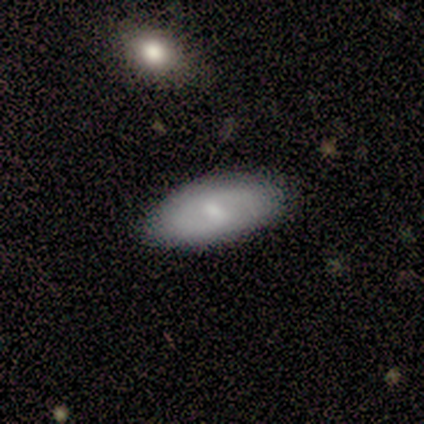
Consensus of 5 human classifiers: featured or disk 60%, smooth 40%, star or artifact 0%. Down the decision tree: edge-on disk — no (100%); bar — weak (100%); spiral arms — yes (67%); spiral arm count — 1 (50%, tied with 2); spiral winding — tight (50%, tied with loose); bulge size — small (100%); merging — none (100%).